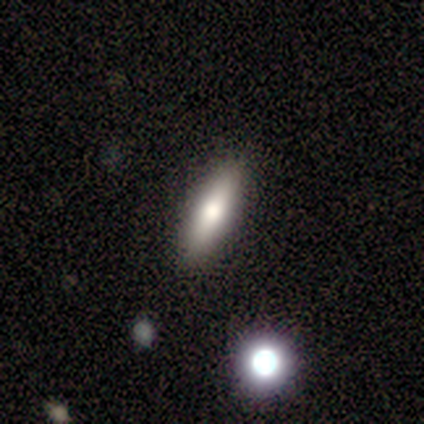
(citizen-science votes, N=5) A featured or disk galaxy (60%) viewed edge-on (67%) with a rounded central bulge (100%).

Vote fractions:
- Smooth or featured? featured or disk: 60% / smooth: 40% / star or artifact: 0%
- Edge-on disk? yes: 67% / no: 33%
- Edge-on bulge? rounded: 100% / boxy: 0% / none: 0%
- Merging? none: 100% / minor disturbance: 0% / major disturbance: 0% / merger: 0%